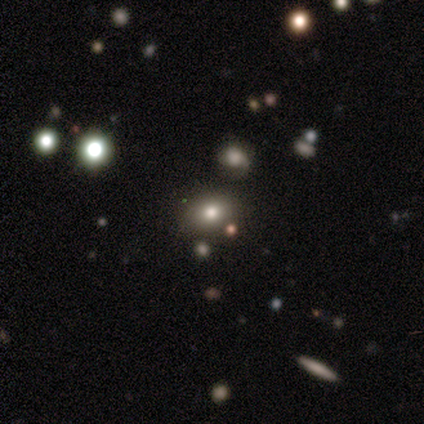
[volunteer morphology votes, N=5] smooth 60%, featured or disk 40%, star or artifact 0%. Down the decision tree: how rounded — round (67%); merging — none (60%).